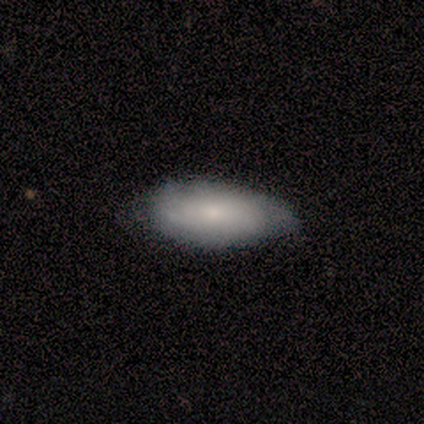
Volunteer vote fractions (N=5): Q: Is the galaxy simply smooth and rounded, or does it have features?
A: smooth — 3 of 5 (60%).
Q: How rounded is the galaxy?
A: in between — 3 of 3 (100%).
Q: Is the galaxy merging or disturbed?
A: none — 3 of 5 (60%).